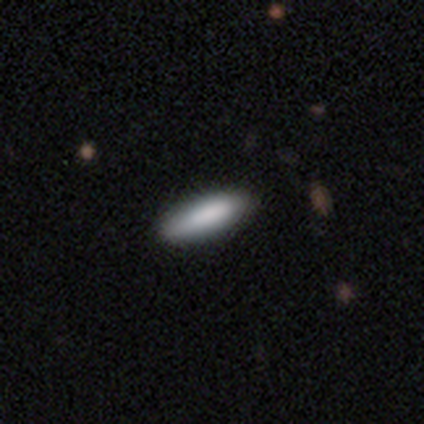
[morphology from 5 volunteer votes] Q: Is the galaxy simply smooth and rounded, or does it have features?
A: smooth — 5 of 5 (100%).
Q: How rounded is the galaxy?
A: cigar-shaped — 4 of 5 (80%).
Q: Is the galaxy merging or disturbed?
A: none — 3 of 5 (60%).